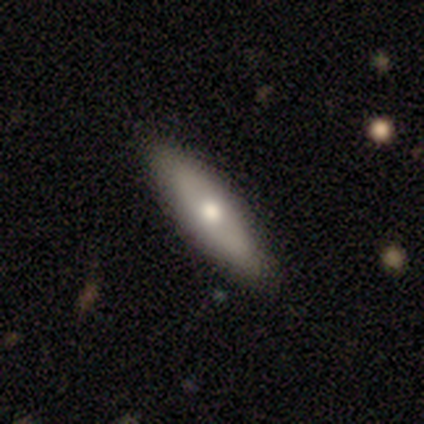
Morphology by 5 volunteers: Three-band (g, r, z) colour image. It shows a featured or disk galaxy (60%) viewed edge-on (67%) with no central bulge (50%, tied with rounded). Merging: none (80%).